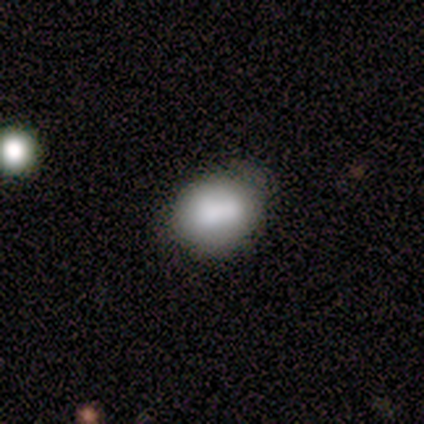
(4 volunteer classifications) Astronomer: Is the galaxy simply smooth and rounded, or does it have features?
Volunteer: smooth — 100%.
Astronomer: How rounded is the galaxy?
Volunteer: round — 50%, tied with in between at 50%.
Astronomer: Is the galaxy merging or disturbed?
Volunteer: none — 75%.